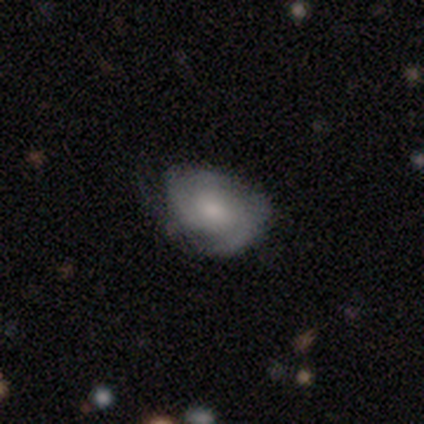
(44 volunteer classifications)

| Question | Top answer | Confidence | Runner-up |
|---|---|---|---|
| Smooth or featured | featured or disk | 66% | smooth (30%) |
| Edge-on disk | no | 97% | yes (3%) |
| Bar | no | 86% | weak (14%) |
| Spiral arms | yes | 93% | no (7%) |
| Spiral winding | tight | 65% | medium (27%) |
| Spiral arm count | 3 | 35% | can't tell (31%) |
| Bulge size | small | 46% | moderate (43%) |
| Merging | none | 55% | minor disturbance (31%) |